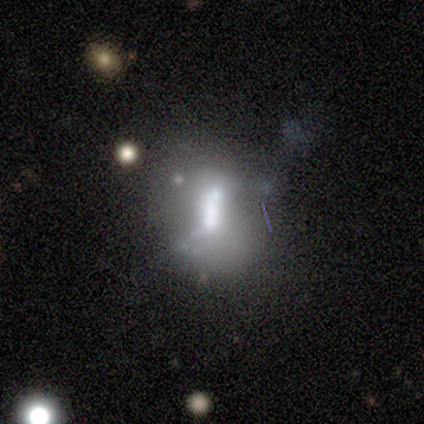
This is clearly a featured or disk galaxy (100%). It is clearly not viewed edge-on (100%). Bar: marginally strong (40%, tied with no). Spiral arm pattern: clearly no (80%). Central bulge: likely moderate (60%). Merging: clearly none (80%).